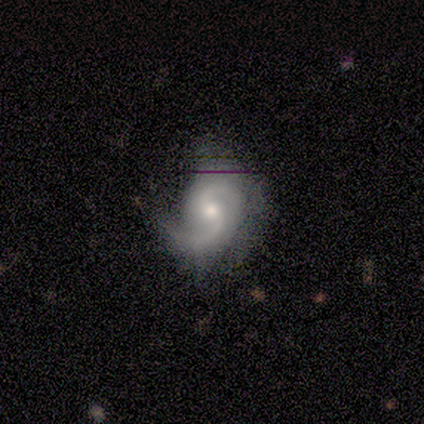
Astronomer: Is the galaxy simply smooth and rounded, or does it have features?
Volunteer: featured or disk — 85%.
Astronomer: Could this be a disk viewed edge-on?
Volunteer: no — 97%.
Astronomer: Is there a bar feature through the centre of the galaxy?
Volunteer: weak — 48% (runner-up: no, 42%).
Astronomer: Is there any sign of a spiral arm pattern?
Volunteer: yes — 100%.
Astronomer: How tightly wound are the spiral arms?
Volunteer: medium — 58%.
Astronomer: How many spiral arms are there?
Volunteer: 2 — 88%.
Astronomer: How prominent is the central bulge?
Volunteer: moderate — 55% (runner-up: small, 39%).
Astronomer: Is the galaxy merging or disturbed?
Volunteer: none — 38%.